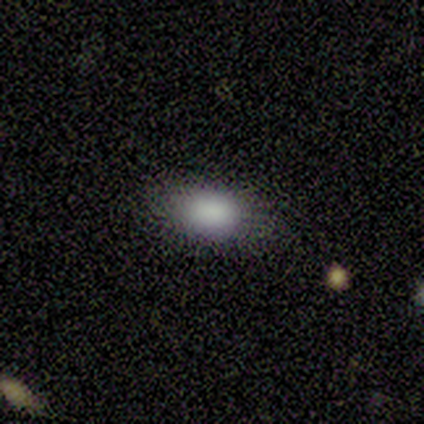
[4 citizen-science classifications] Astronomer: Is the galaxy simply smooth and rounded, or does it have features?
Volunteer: smooth — 75%.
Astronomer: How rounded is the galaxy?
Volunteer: in between — 100%.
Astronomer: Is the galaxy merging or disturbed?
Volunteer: none — 50%, tied with minor disturbance at 50%.